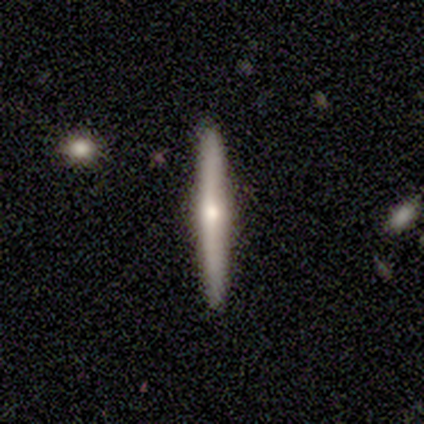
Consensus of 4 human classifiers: Smooth or featured?
  - featured or disk: 75% *
  - smooth: 25%
  - star or artifact: 0%
Edge-on disk?
  - yes: 100% *
  - no: 0%
Edge-on bulge?
  - rounded: 67% *
  - none: 33%
  - boxy: 0%
Merging?
  - none: 100% *
  - minor disturbance: 0%
  - major disturbance: 0%
  - merger: 0%